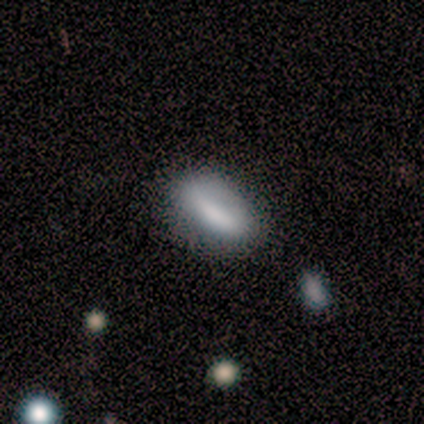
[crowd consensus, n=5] This is likely a smooth galaxy (60%). How rounded: clearly in between (100%). Merging: possibly none (50%).